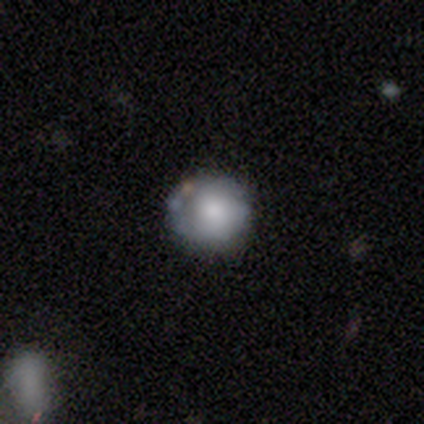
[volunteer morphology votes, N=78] Q: Smooth or featured?
A: smooth (58%); runner-up: featured or disk (36%)
Q: How rounded?
A: round (98%); runner-up: in between (2%)
Q: Merging?
A: none (42%); runner-up: minor disturbance (8%)